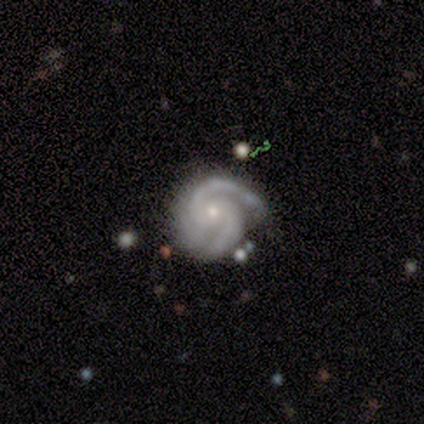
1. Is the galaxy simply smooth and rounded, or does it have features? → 98% featured or disk, 2% star or artifact, 0% smooth.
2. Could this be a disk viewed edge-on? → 100% no, 0% yes.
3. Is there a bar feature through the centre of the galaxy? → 74% no, 19% weak, 7% strong.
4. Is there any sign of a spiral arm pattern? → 100% yes, 0% no.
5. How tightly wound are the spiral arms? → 52% tight, 44% medium, 4% loose.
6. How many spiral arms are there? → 91% 2, 9% 3, 0% 1, 0% 4, 0% more than 4, 0% can't tell.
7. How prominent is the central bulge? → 67% small, 30% moderate, 2% large, 2% none, 0% dominant.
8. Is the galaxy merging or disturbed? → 67% none, 33% minor disturbance, 0% major disturbance, 0% merger.